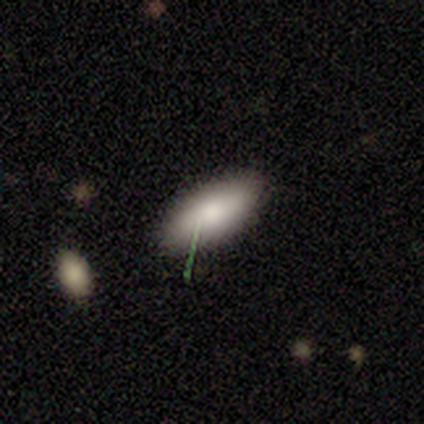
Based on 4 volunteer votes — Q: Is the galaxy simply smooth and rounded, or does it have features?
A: smooth — 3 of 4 (75%).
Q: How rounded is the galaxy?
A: in between — 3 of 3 (100%).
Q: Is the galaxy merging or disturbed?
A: none — 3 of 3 (100%).